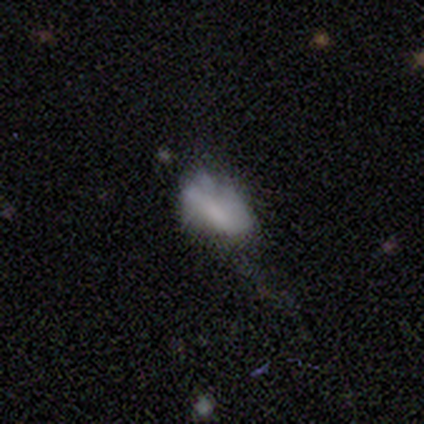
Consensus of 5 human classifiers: smooth-or-featured: smooth: 80% | star or artifact: 20% | featured or disk: 0%
  how-rounded: in between: 100% | round: 0% | cigar-shaped: 0%
  merging: none: 50% (tied) | minor disturbance: 50% (tied) | major disturbance: 0% | merger: 0%